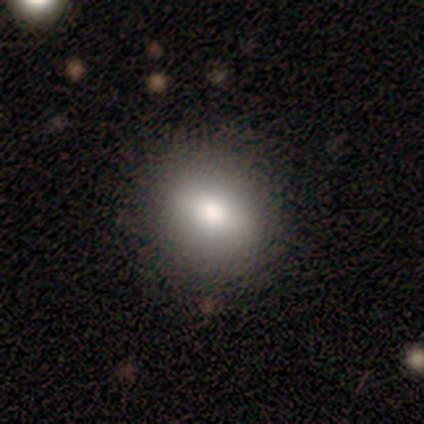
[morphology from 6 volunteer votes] Volunteers were most divided on "smooth or featured": smooth: 67%, featured or disk: 33%, star or artifact: 0%. More confident: merging — none (83%); how rounded — round (75%).